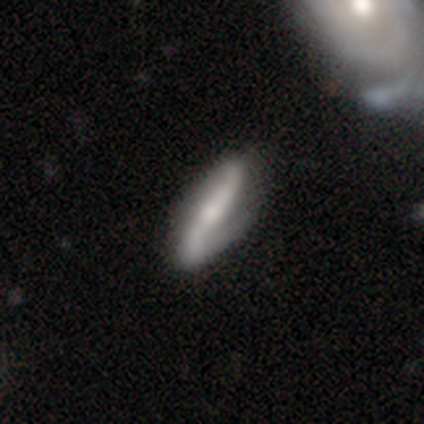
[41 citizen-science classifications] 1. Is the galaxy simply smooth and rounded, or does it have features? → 54% featured or disk, 37% smooth, 10% star or artifact.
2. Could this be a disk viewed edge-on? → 82% no, 18% yes.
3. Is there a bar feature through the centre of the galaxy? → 56% weak, 39% strong, 6% no.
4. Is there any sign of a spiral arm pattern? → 89% yes, 11% no.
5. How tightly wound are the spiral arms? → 50% loose, 31% medium, 19% tight.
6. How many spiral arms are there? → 81% 2, 12% 1, 6% can't tell, 0% 3, 0% 4, 0% more than 4.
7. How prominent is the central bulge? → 44% small, 39% moderate, 11% none, 6% large, 0% dominant.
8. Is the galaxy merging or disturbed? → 68% none, 24% minor disturbance, 5% major disturbance, 3% merger.